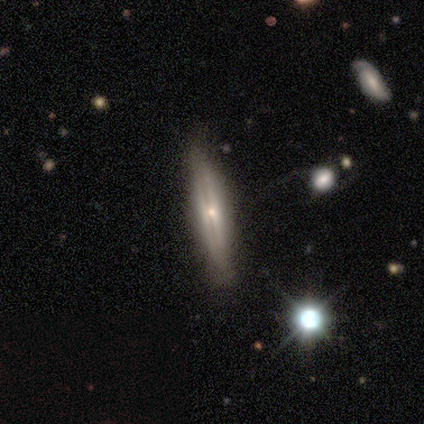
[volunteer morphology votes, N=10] Smooth or featured? featured or disk (70%)
Edge-on disk? yes (86%)
Edge-on bulge? rounded (67%)
Merging? none (100%)